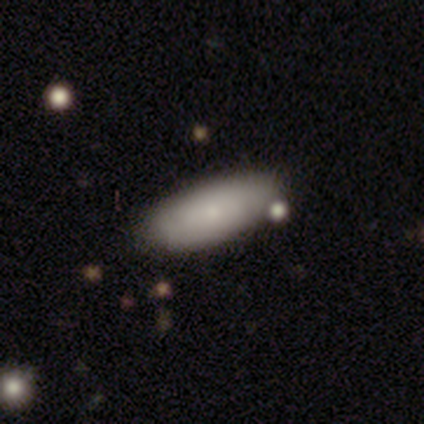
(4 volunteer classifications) A smooth galaxy with no disk features (75%) that is round (33%, tied with in between and cigar-shaped). Merging: none (100%).